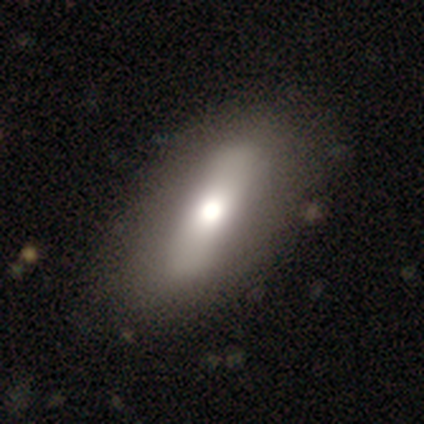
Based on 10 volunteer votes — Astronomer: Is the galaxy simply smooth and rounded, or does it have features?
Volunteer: smooth — 60%.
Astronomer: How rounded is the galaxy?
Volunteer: in between — 83%.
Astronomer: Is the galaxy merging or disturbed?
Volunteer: none — 100%.